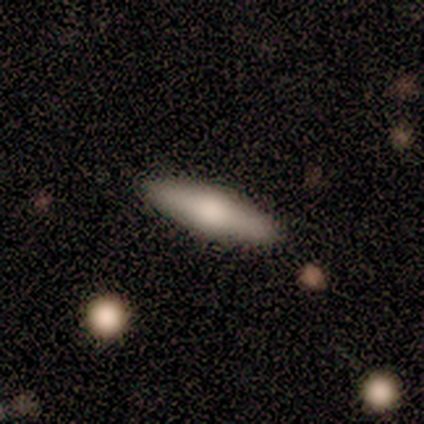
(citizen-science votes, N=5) Smooth or featured: smooth — 100%
How rounded: cigar-shaped — 60% (in between — 40%)
Merging: none — 100%